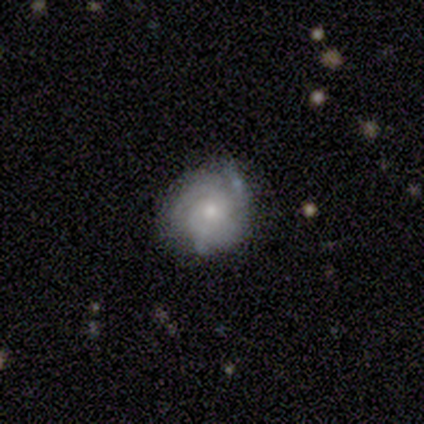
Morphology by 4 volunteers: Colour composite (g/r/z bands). It shows a smooth galaxy with no disk features (75%) that is round (100%). Merging: none (50%, tied with minor disturbance).